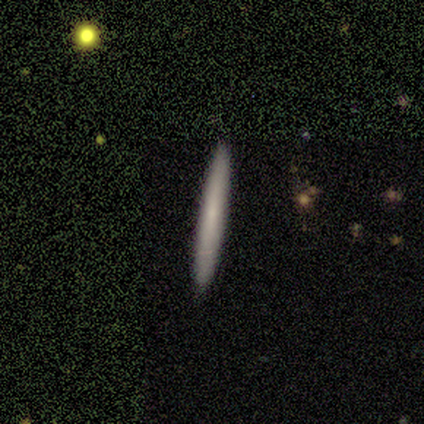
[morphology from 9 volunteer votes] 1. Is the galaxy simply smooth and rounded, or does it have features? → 78% smooth, 22% featured or disk, 0% star or artifact.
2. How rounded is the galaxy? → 100% cigar-shaped, 0% round, 0% in between.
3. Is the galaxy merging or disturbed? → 78% none, 11% minor disturbance, 11% merger, 0% major disturbance.